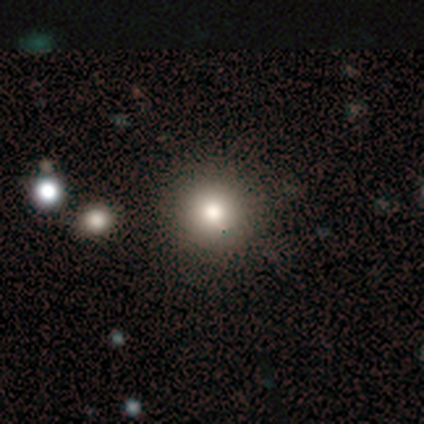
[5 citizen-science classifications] smooth-or-featured: smooth: 60% | star or artifact: 40% | featured or disk: 0%
  how-rounded: round: 100% | in between: 0% | cigar-shaped: 0%
  merging: none: 100% | minor disturbance: 0% | major disturbance: 0% | merger: 0%